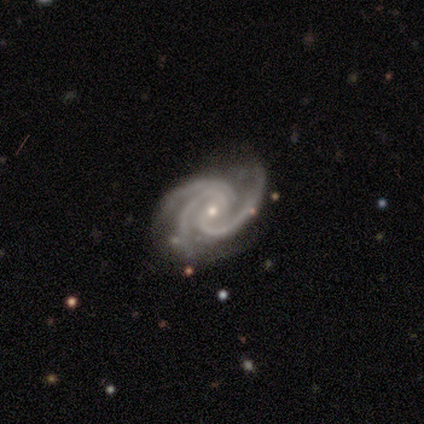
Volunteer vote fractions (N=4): Smooth or featured? featured or disk (100%)
Edge-on disk? no (100%)
Bar? weak (75%)
Spiral arms? yes (100%)
Spiral winding? tight (75%)
Spiral arm count? 3 (100%)
Bulge size? small (75%)
Merging? none (75%)